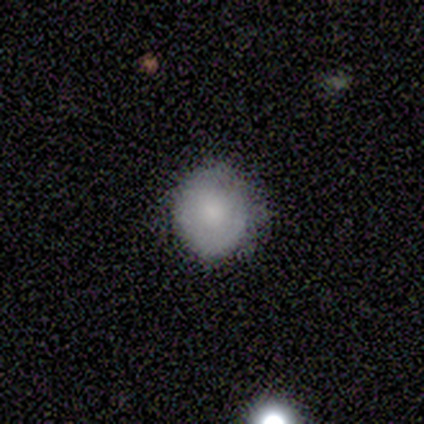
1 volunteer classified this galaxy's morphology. Overall: smooth (100%). How rounded: round (100%). Merging: minor disturbance (100%).